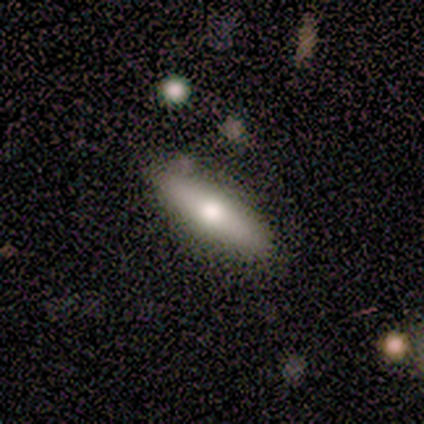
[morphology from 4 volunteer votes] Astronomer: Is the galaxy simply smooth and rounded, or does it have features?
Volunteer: smooth — 50%, tied with featured or disk at 50%.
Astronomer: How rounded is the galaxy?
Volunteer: in between — 100%.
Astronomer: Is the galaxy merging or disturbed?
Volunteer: none — 75%.